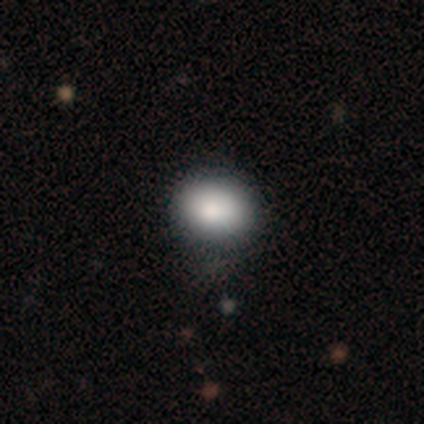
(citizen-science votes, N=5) Volunteers were most divided on "how rounded": in between: 75%, round: 25%, cigar-shaped: 0%. More confident: smooth or featured — smooth (80%); merging — none (80%).